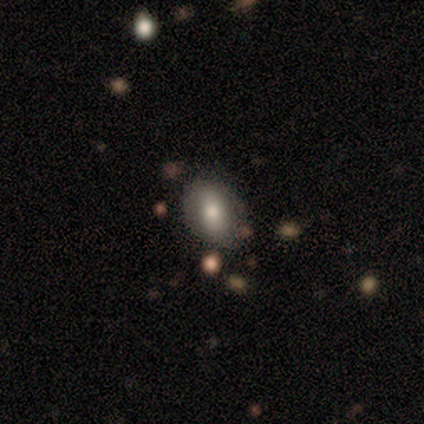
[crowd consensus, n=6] Smooth or featured? 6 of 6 (100%) said smooth. How rounded? 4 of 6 (67%) said in between. Merging? 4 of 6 (67%) said none.